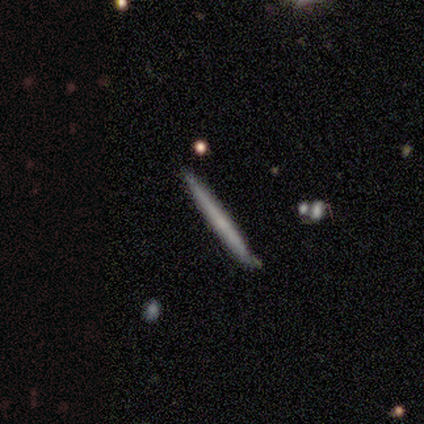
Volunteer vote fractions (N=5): A smooth galaxy with no disk features (80%) that is cigar-shaped (100%).

Vote fractions:
- Smooth or featured? smooth: 80% / featured or disk: 20% / star or artifact: 0%
- How rounded? cigar-shaped: 100% / round: 0% / in between: 0%
- Merging? none: 100% / minor disturbance: 0% / major disturbance: 0% / merger: 0%